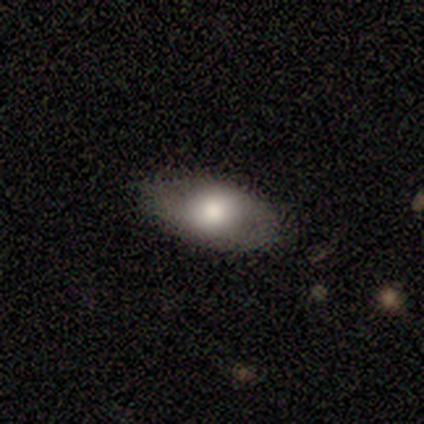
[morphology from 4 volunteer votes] smooth 50% (tied), featured or disk 50% (tied), star or artifact 0%. Down the decision tree: how rounded — in between (100%); merging — minor disturbance (75%).